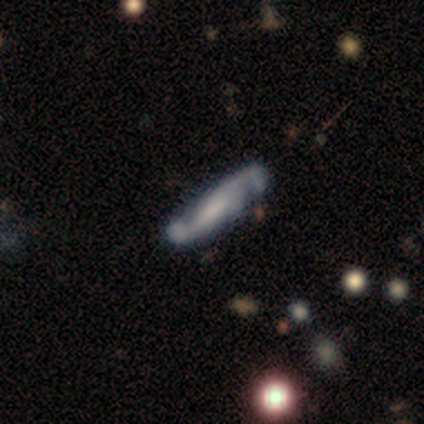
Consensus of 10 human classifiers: Q: Smooth or featured?
A: featured or disk (70%); runner-up: smooth (30%)
Q: Edge-on disk?
A: no (86%); runner-up: yes (14%)
Q: Bar?
A: no (50%); runner-up: strong (33%)
Q: Spiral arms?
A: yes (100%)
Q: Spiral winding?
A: medium (67%); runner-up: loose (33%)
Q: Spiral arm count?
A: 2 (100%)
Q: Bulge size?
A: small (50%); runner-up: none (33%)
Q: Merging?
A: none (70%); runner-up: minor disturbance (10%)